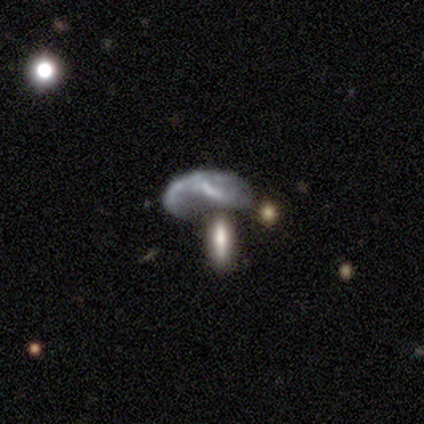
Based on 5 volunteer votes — This is clearly a featured or disk galaxy (80%). It is likely not viewed edge-on (75%). Bar: likely no (67%). Spiral arm pattern: likely yes (67%). Spiral arm count: possibly 1 (50%, tied with 2). Spiral winding: clearly loose (100%). Central bulge: marginally large (33%, tied with small and none). Merging: marginally major disturbance (40%, tied with merger).